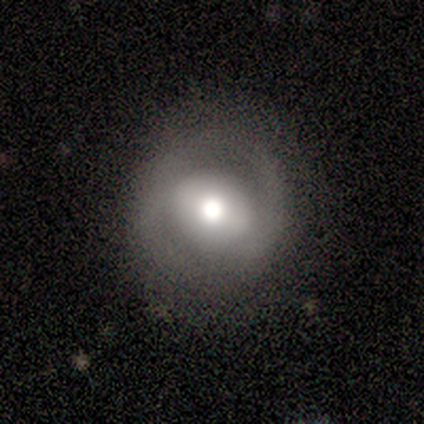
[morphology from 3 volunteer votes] smooth-or-featured: featured or disk: 67% | smooth: 33% | star or artifact: 0%
  disk-edge-on: no: 100% | yes: 0%
    bar: strong: 50% (tied) | weak: 50% (tied) | no: 0%
    has-spiral-arms: yes: 50% (tied) | no: 50% (tied)
      spiral-winding: loose: 100% | tight: 0% | medium: 0%
      spiral-arm-count: 2: 100% | 1: 0% | 3: 0% | 4: 0% | more than 4: 0% | can't tell: 0%
    bulge-size: large: 50% (tied) | moderate: 50% (tied) | dominant: 0% | small: 0% | none: 0%
  merging: none: 100% | minor disturbance: 0% | major disturbance: 0% | merger: 0%